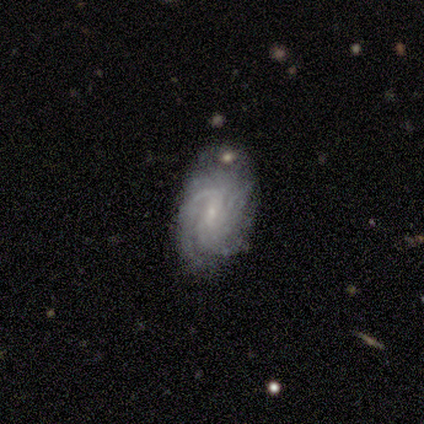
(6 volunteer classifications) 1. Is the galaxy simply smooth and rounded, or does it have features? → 100% featured or disk, 0% smooth, 0% star or artifact.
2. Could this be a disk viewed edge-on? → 100% no, 0% yes.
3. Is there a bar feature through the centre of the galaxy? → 50% weak (tied), 50% no (tied), 0% strong.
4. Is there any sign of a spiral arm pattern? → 83% yes, 17% no.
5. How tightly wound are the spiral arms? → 60% medium, 40% tight, 0% loose.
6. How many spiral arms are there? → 60% 3, 20% 2, 20% can't tell, 0% 1, 0% 4, 0% more than 4.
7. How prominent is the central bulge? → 50% small, 33% none, 17% moderate, 0% dominant, 0% large.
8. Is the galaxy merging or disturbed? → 100% none, 0% minor disturbance, 0% major disturbance, 0% merger.